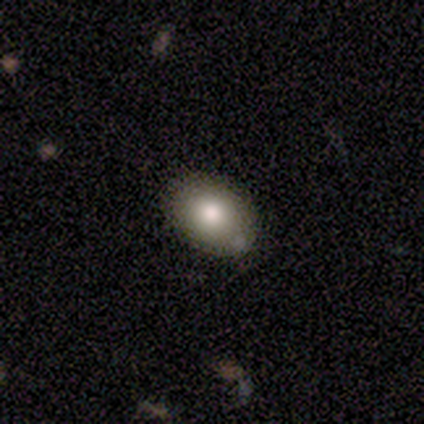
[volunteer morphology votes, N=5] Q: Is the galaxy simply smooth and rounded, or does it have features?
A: smooth — 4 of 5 (80%).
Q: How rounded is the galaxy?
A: in between — 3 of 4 (75%).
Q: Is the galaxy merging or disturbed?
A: none — 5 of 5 (100%).